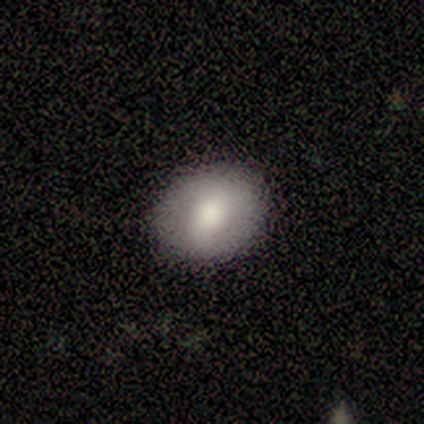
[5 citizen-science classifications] smooth_or_featured: smooth (p=1.00)
how_rounded: round (p=0.80) [alt: in between p=0.20]
merging: none (p=1.00)